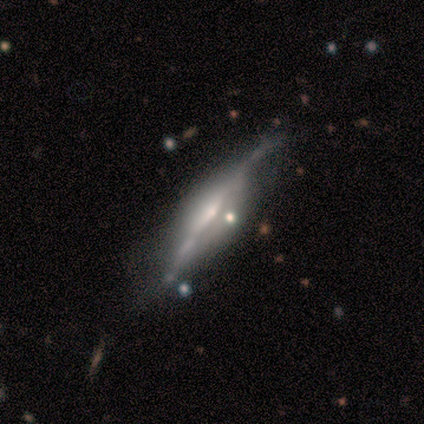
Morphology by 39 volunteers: type=featured or disk (92%); edge-on=yes (86%); edge-on bulge=rounded (74%); merging=none (45%).